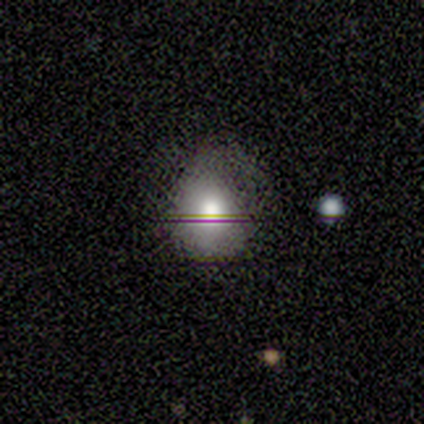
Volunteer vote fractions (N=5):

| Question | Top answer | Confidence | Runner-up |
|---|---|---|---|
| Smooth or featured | smooth | 80% | featured or disk (20%) |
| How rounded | round | 50% | tied: in between (50%) |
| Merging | none | 60% | minor disturbance (40%) |